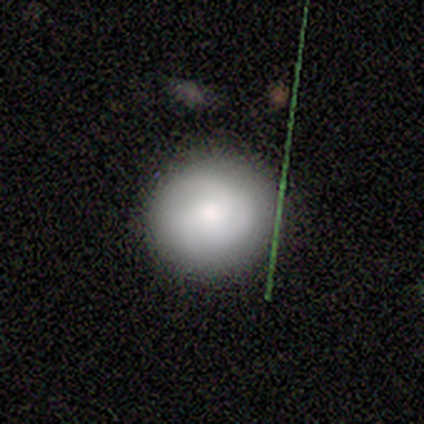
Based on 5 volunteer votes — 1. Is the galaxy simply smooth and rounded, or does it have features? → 60% smooth, 20% featured or disk, 20% star or artifact.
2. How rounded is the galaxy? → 67% round, 33% in between, 0% cigar-shaped.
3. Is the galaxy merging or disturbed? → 100% none, 0% minor disturbance, 0% major disturbance, 0% merger.